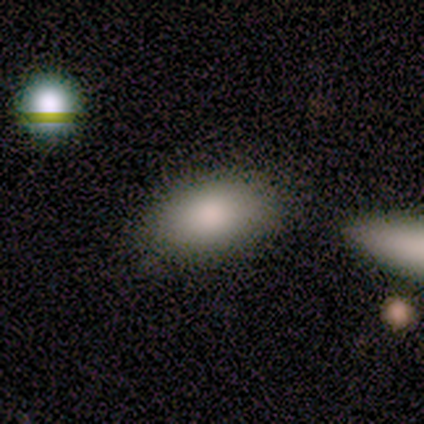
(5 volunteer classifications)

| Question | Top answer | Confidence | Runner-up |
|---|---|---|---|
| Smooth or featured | smooth | 80% | star or artifact (20%) |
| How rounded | in between | 100% | — |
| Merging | none | 100% | — |